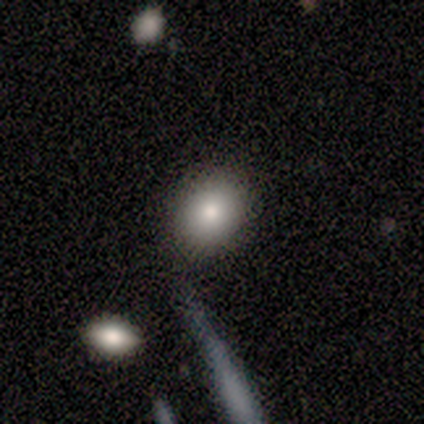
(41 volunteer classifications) A smooth galaxy with no disk features (93%) that is round (50%). Merging: none (80%).